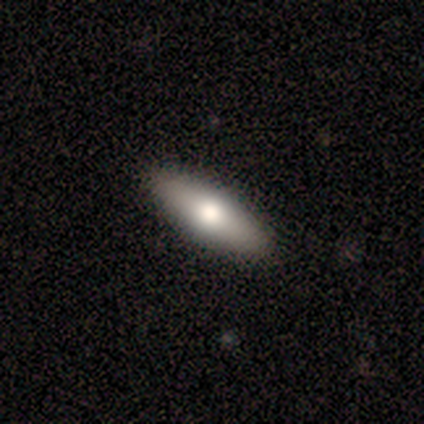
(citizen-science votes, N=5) A smooth galaxy with no disk features (40%, tied with featured or disk) that is in between round and cigar-shaped (50%, tied with cigar-shaped). Merging: none (100%).